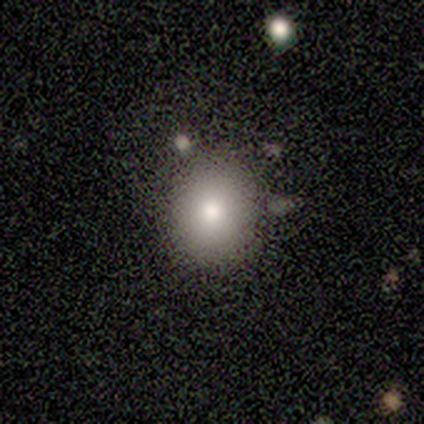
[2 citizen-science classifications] smooth 50% (tied), featured or disk 50% (tied), star or artifact 0%. Down the decision tree: how rounded — round (100%); merging — none (50%, tied with minor disturbance).